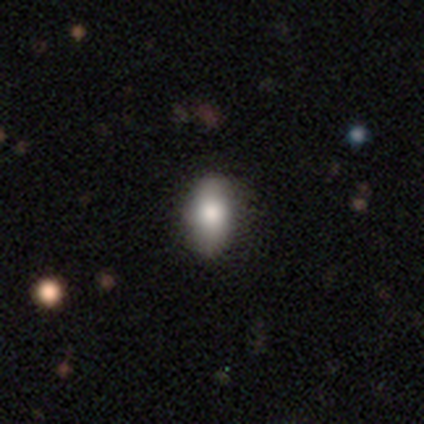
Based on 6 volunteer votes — Volunteers were most divided on "merging": none: 83%, minor disturbance: 17%, major disturbance: 0%, merger: 0%. More confident: smooth or featured — smooth (100%); how rounded — in between (100%).